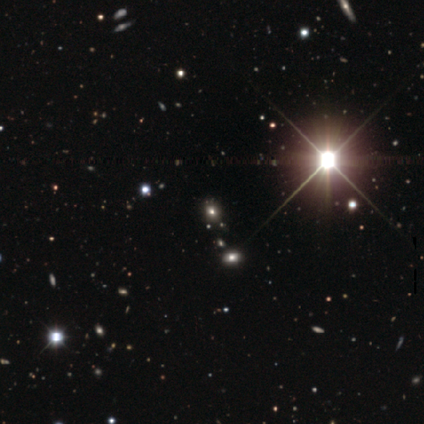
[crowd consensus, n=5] A smooth galaxy with no disk features (60%) that is round (67%).

Vote fractions:
- Smooth or featured? smooth: 60% / star or artifact: 40% / featured or disk: 0%
- How rounded? round: 67% / in between: 33% / cigar-shaped: 0%
- Merging? none: 67% / merger: 33% / minor disturbance: 0% / major disturbance: 0%